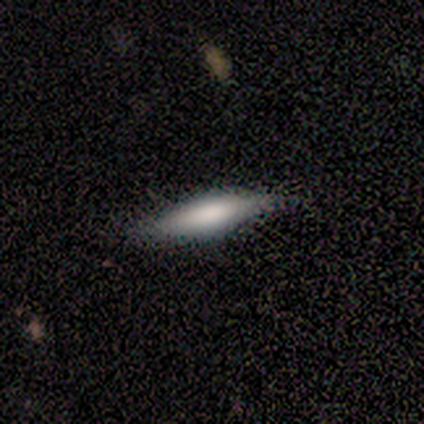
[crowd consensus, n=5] smooth-or-featured: smooth: 40% (tied) | featured or disk: 40% (tied) | star or artifact: 20%
  how-rounded: in between: 100% | round: 0% | cigar-shaped: 0%
  merging: none: 75% | minor disturbance: 25% | major disturbance: 0% | merger: 0%